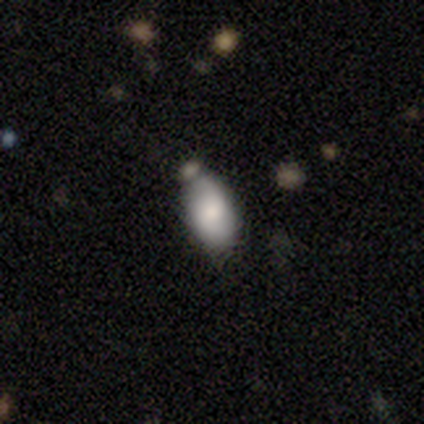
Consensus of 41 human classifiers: smooth_or_featured: smooth (p=0.68) [alt: featured or disk p=0.22]
how_rounded: in between (p=0.86) [alt: cigar-shaped p=0.11]
merging: none (p=0.65) [alt: minor disturbance p=0.22]